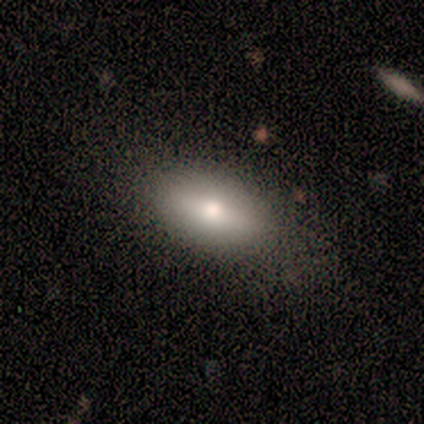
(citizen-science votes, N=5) Smooth or featured? 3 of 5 (60%) said smooth. How rounded? 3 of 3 (100%) said in between. Merging? 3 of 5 (60%) said none.